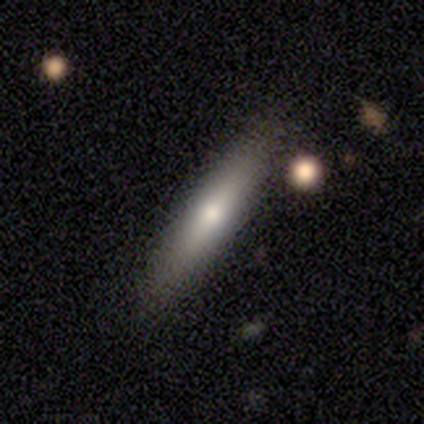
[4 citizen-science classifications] Volunteers were most divided on "merging": none: 67%, minor disturbance: 33%, major disturbance: 0%, merger: 0%. More confident: how rounded — cigar-shaped (100%); smooth or featured — smooth (75%).